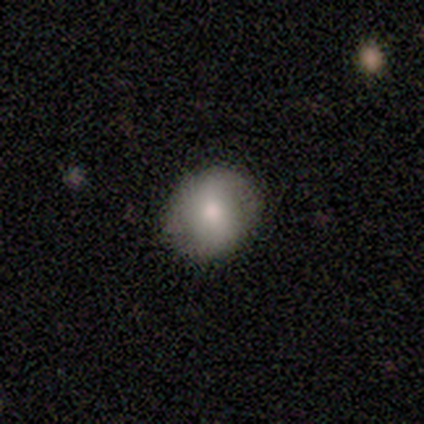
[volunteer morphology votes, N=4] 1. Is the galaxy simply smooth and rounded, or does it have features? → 50% featured or disk, 25% smooth, 25% star or artifact.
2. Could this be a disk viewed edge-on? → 100% no, 0% yes.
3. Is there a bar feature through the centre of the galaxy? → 100% no, 0% strong, 0% weak.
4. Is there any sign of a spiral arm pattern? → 100% yes, 0% no.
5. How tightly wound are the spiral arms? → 50% medium (tied), 50% loose (tied), 0% tight.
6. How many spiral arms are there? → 100% 2, 0% 1, 0% 3, 0% 4, 0% more than 4, 0% can't tell.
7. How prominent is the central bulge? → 100% moderate, 0% dominant, 0% large, 0% small, 0% none.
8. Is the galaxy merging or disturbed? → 100% none, 0% minor disturbance, 0% major disturbance, 0% merger.